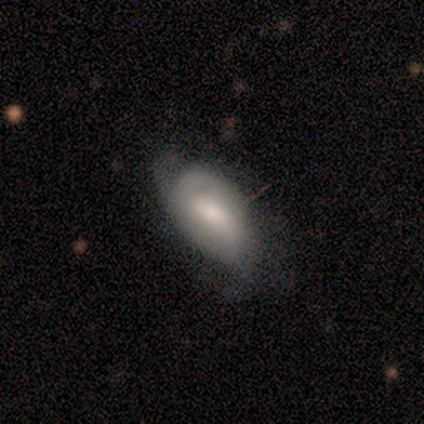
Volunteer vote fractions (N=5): Smooth or featured: featured or disk — 80% (smooth — 20%)
Edge-on disk: no — 100%
Bar: weak — 50% (tied with no — 50%)
Spiral arms: yes — 75% (no — 25%)
Spiral winding: tight — 33% (tied with medium — 33%; loose — 33%)
Spiral arm count: 2 — 100%
Bulge size: small — 50% (moderate — 25%)
Merging: none — 40% (tied with minor disturbance — 40%)